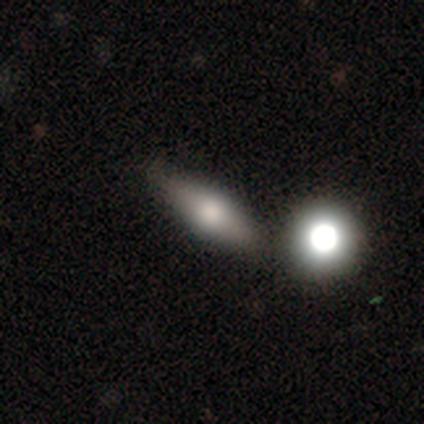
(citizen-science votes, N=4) smooth-or-featured: featured or disk: 50% | smooth: 25% | star or artifact: 25%
  disk-edge-on: yes: 100% | no: 0%
    edge-on-bulge: rounded: 100% | boxy: 0% | none: 0%
  merging: none: 100% | minor disturbance: 0% | major disturbance: 0% | merger: 0%